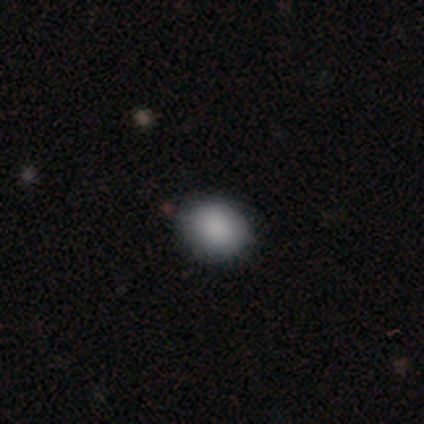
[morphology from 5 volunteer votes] This is likely a smooth galaxy (60%). How rounded: clearly in between (100%). Merging: clearly none (100%).